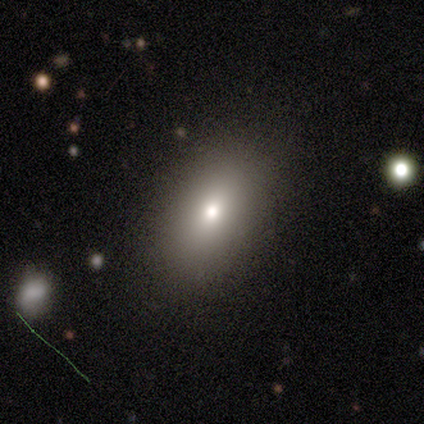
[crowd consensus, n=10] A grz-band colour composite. It shows a smooth galaxy with no disk features (90%) that is in between round and cigar-shaped (89%). Merging: none (90%).